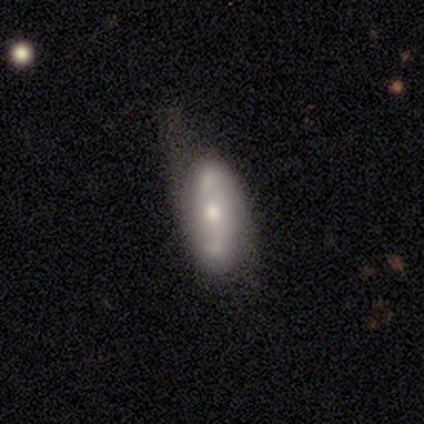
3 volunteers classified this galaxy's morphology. A featured or disk galaxy (100%) with a weak bar (67%), 2 (67%) loose (100%) spiral arms (100%) and a moderate central bulge (67%). Merging: minor disturbance (67%).